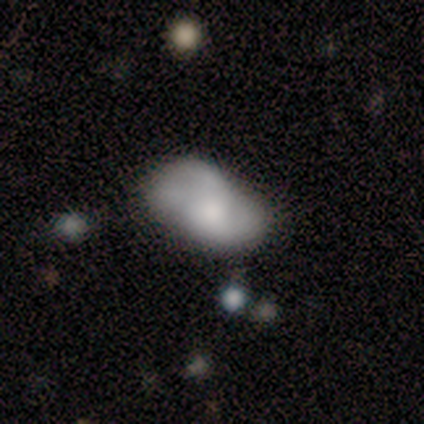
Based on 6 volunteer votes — This is possibly a smooth galaxy (50%). How rounded: clearly in between (100%). Merging: likely minor disturbance (60%).